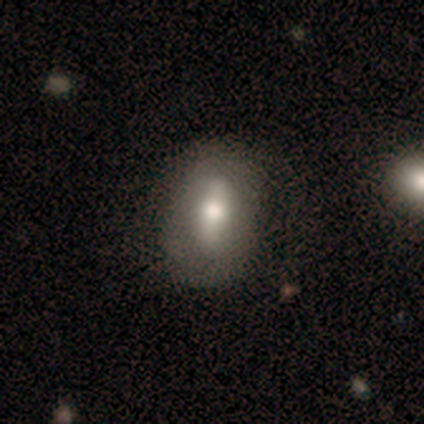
Smooth or featured?
  - featured or disk: 54% *
  - smooth: 38%
  - star or artifact: 8%
Edge-on disk?
  - no: 85% *
  - yes: 15%
Bar?
  - strong: 65% *
  - weak: 29%
  - no: 6%
Spiral arms?
  - no: 88% *
  - yes: 12%
Bulge size?
  - moderate: 59% *
  - large: 29%
  - dominant: 6%
  - none: 6%
  - small: 0%
Merging?
  - none: 76% *
  - minor disturbance: 21%
  - major disturbance: 3%
  - merger: 0%